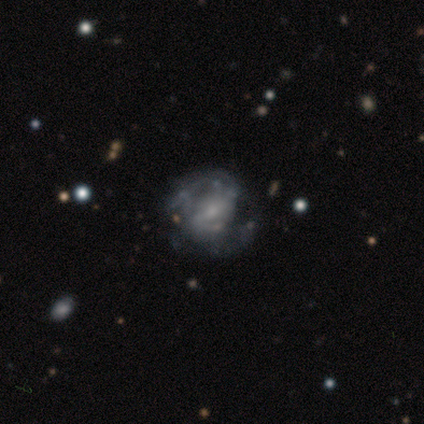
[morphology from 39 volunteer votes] Smooth or featured: featured or disk — 82% (smooth — 13%)
Edge-on disk: no — 100%
Bar: strong — 47% (weak — 28%)
Spiral arms: yes — 88% (no — 12%)
Spiral winding: medium — 54% (loose — 25%)
Spiral arm count: 2 — 68% (can't tell — 21%)
Bulge size: small — 66% (moderate — 16%)
Merging: none — 46% (major disturbance — 19%)